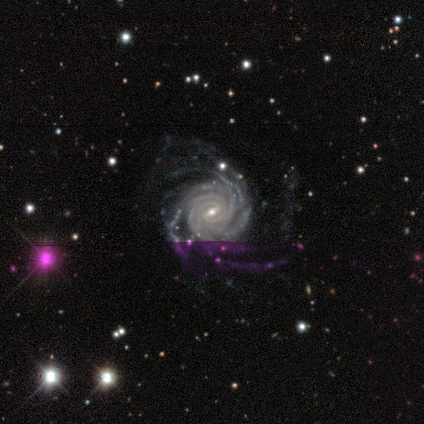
Overall: featured or disk (100%). Edge-on disk: no (67%; yes 33%). Bar: strong (50%, tied with weak). Spiral arms: yes (100%). Spiral arm count: more than 4 (100%). Spiral winding: tight (50%, tied with medium). Bulge size: moderate (100%). Merging: major disturbance (67%; none 33%).